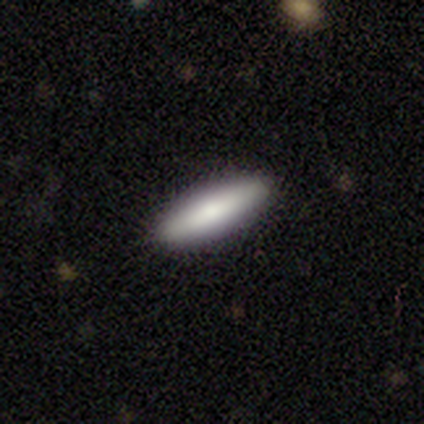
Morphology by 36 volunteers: Smooth or featured?
  - smooth: 69% *
  - featured or disk: 25%
  - star or artifact: 6%
How rounded?
  - cigar-shaped: 80% *
  - in between: 20%
  - round: 0%
Merging?
  - none: 88% *
  - minor disturbance: 12%
  - major disturbance: 0%
  - merger: 0%